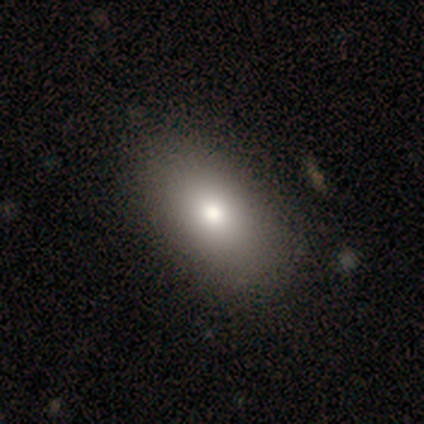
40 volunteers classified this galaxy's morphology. Smooth or featured?
  - smooth: 88% *
  - featured or disk: 8%
  - star or artifact: 5%
How rounded?
  - in between: 91% *
  - round: 9%
  - cigar-shaped: 0%
Merging?
  - none: 71% *
  - minor disturbance: 5%
  - major disturbance: 0%
  - merger: 0%